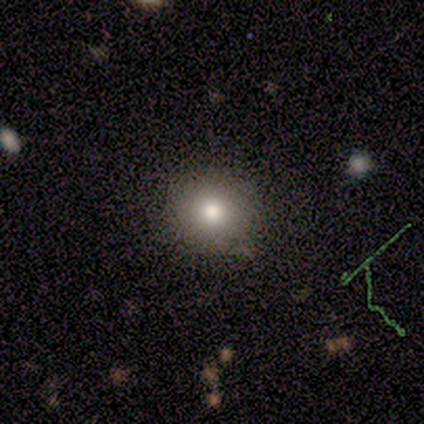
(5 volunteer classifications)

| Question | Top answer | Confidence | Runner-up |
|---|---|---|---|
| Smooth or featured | smooth | 80% | star or artifact (20%) |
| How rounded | round | 100% | — |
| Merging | none | 100% | — |